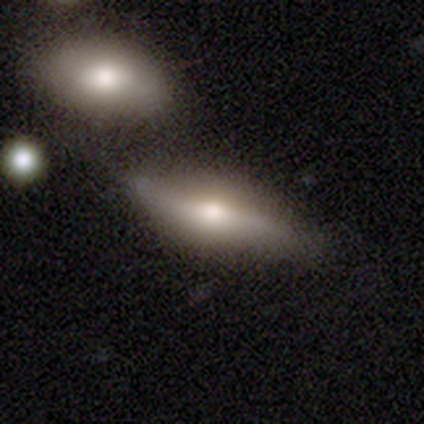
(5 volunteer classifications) This appears to be a smooth galaxy with no disk features (60%) that is cigar-shaped (67%). Merging: none (60%).